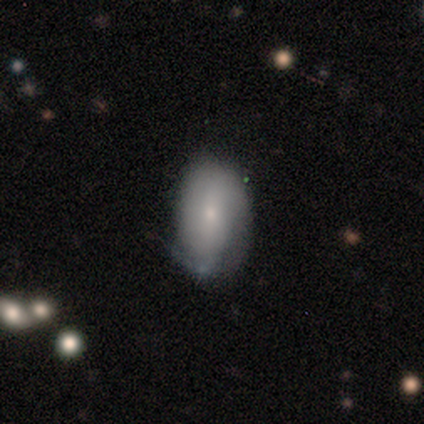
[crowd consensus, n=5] Smooth or featured? 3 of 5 (60%) said featured or disk. Edge-on disk? 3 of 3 (100%) said no. Bar? 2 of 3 (67%) said no. Spiral arms? 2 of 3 (67%) said no. Bulge size? 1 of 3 (33%, tied with small and none) said moderate. Merging? 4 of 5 (80%) said none.